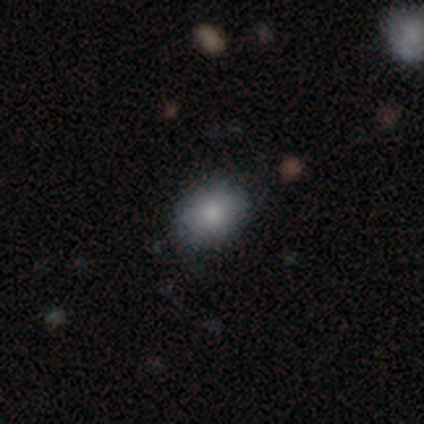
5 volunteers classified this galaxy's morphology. Smooth or featured?
  - smooth: 60% *
  - featured or disk: 20%
  - star or artifact: 20%
How rounded?
  - in between: 100% *
  - round: 0%
  - cigar-shaped: 0%
Merging?
  - none: 100% *
  - minor disturbance: 0%
  - major disturbance: 0%
  - merger: 0%